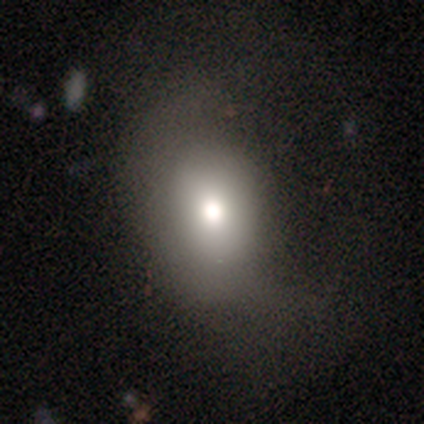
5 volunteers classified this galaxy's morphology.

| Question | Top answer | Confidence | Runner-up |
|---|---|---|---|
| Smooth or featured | featured or disk | 60% | smooth (40%) |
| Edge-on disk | yes | 67% | no (33%) |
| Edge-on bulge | rounded | 100% | — |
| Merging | none | 60% | major disturbance (40%) |